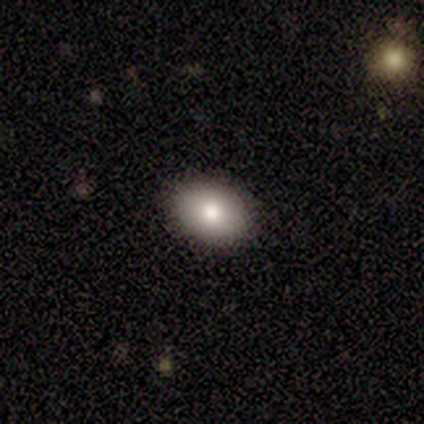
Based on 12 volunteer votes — Smooth or featured? 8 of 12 (67%) said smooth. How rounded? 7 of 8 (88%) said in between. Merging? 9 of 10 (90%) said none.